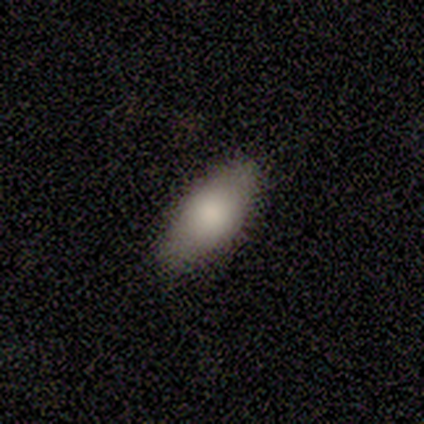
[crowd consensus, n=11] Smooth or featured: smooth — 91% (featured or disk — 9%)
How rounded: in between — 90% (round — 10%)
Merging: none — 91% (minor disturbance — 9%)